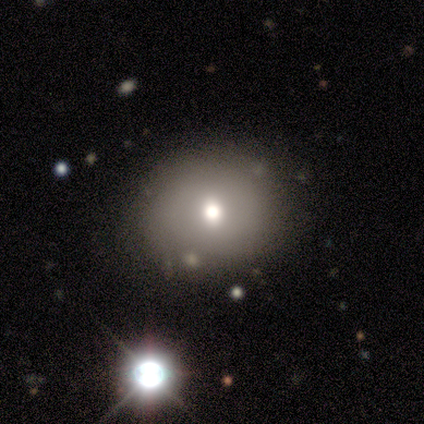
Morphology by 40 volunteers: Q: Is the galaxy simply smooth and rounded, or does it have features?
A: smooth — 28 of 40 (70%).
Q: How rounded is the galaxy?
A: round — 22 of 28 (79%).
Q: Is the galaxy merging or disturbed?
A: none — 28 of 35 (80%).